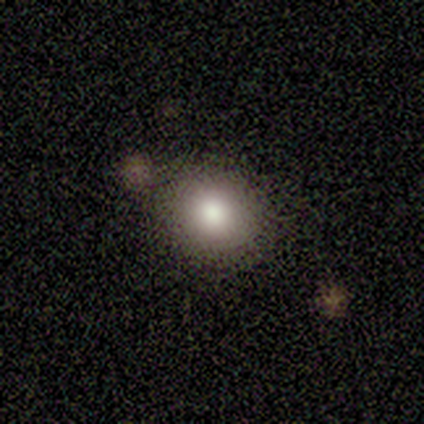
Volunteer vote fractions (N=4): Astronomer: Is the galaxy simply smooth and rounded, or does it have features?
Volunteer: smooth — 100%.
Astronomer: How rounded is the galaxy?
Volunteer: round — 100%.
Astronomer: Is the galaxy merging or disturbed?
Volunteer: none — 100%.